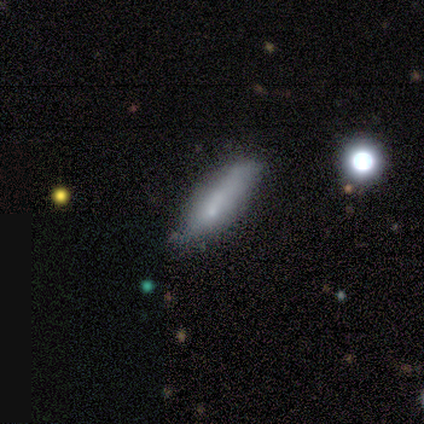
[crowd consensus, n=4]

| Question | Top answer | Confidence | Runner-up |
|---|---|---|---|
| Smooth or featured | smooth | 75% | featured or disk (25%) |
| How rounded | cigar-shaped | 67% | in between (33%) |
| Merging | minor disturbance | 75% | none (25%) |